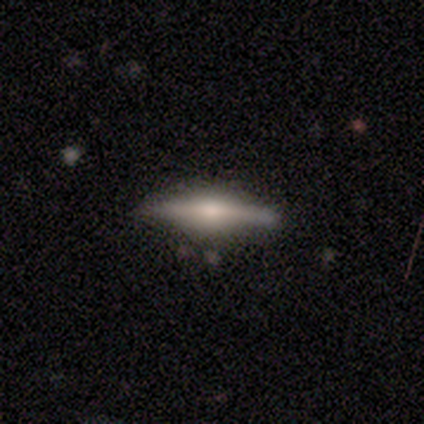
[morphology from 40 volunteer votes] This is likely a featured or disk galaxy (70%). It is clearly viewed edge-on (96%). Edge-on bulge: clearly rounded (85%). Merging: marginally none (42%).